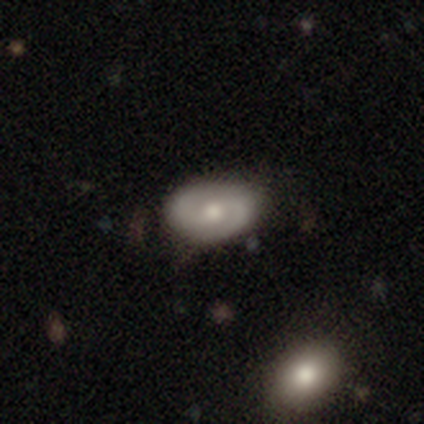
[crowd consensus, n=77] This appears to be a featured or disk galaxy (62%) with no bar (51%), 2 (98%) medium (48%) spiral arms (85%) and a moderate central bulge (68%). Merging: none (43%).